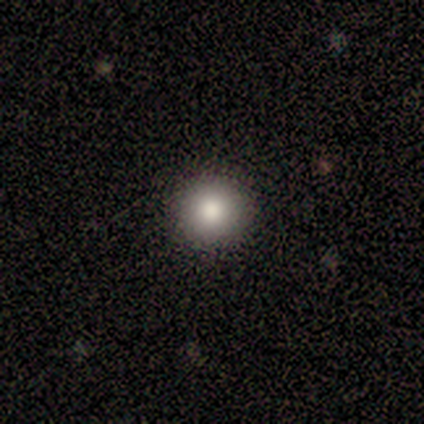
This appears to be a smooth galaxy with no disk features (80%) that is round (100%). Merging: none (100%).